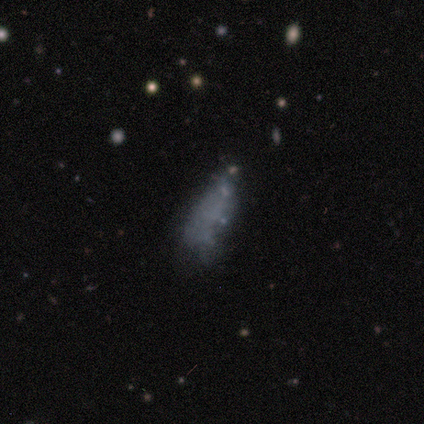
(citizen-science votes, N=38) Smooth or featured: smooth — 45% (tied with featured or disk — 45%)
How rounded: in between — 53% (cigar-shaped — 47%)
Merging: none — 32% (minor disturbance — 26%)